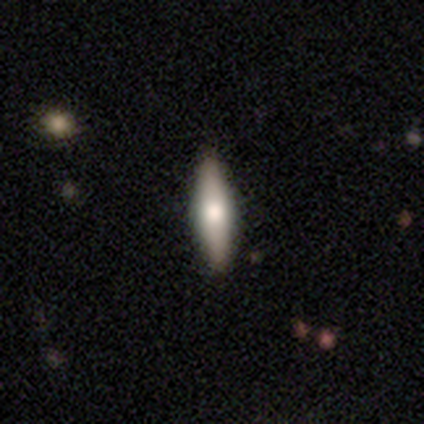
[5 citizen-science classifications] This is likely a featured or disk galaxy (60%). It is clearly viewed edge-on (100%). Edge-on bulge: clearly rounded (100%). Merging: clearly none (100%).